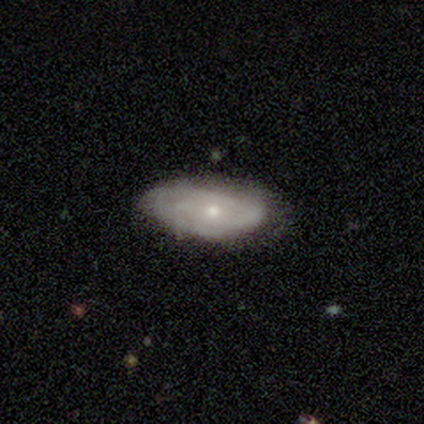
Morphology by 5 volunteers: smooth_or_featured: featured or disk (p=0.80) [alt: smooth p=0.20]
disk_edge_on: no (p=0.75) [alt: yes p=0.25]
bar: no (p=1.00)
has_spiral_arms: yes (p=1.00)
spiral_winding: tight (p=0.33) [tied with: medium p=0.33, loose p=0.33]
spiral_arm_count: can't tell (p=0.67) [alt: 2 p=0.33]
bulge_size: small (p=1.00)
merging: none (p=1.00)